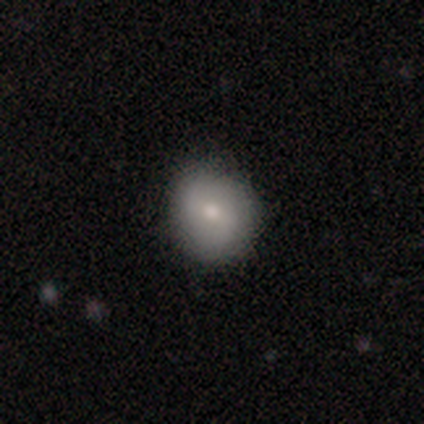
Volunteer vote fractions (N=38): Morphology: type=smooth (68%); roundness=round (81%); merging=none (82%).